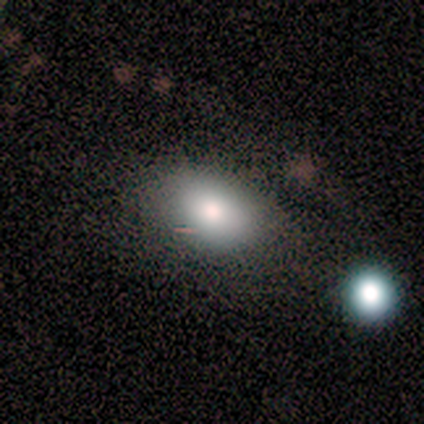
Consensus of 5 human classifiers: This is clearly a smooth galaxy (80%). How rounded: clearly in between (100%). Merging: clearly none (100%).